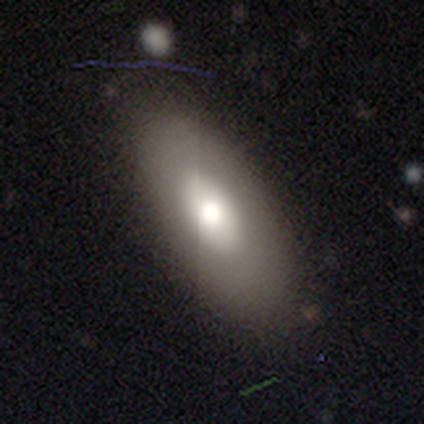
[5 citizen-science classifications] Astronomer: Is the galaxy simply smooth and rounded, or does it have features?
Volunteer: smooth — 80%.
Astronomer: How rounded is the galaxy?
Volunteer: in between — 100%.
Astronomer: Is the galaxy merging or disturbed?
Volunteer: none — 100%.